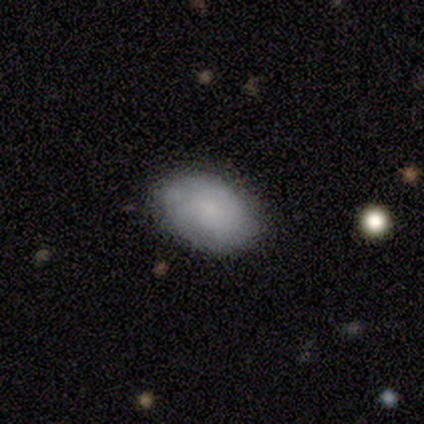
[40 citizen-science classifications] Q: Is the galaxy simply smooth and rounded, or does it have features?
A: smooth — 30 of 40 (75%).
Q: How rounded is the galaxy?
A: in between — 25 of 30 (83%).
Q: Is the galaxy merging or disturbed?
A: none — 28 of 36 (78%).